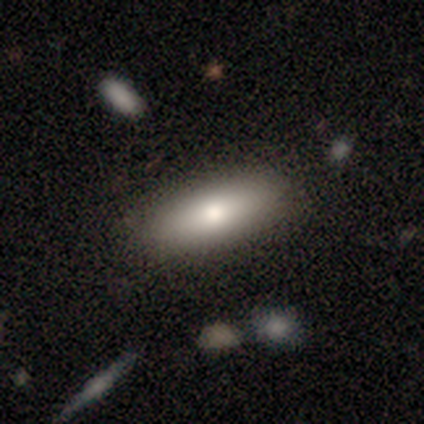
Morphology: type=smooth (82%); roundness=in between (59%); merging=none (87%).